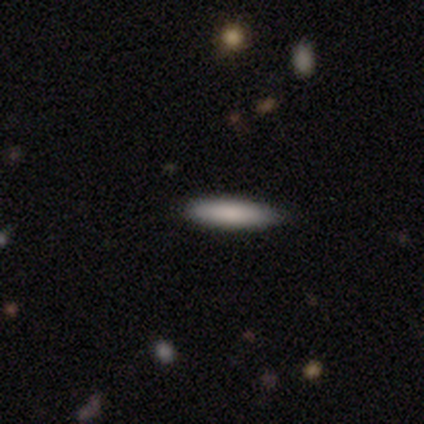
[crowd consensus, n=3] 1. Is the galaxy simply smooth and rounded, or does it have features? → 100% smooth, 0% featured or disk, 0% star or artifact.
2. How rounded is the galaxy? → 100% cigar-shaped, 0% round, 0% in between.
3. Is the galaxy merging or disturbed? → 67% none, 33% minor disturbance, 0% major disturbance, 0% merger.